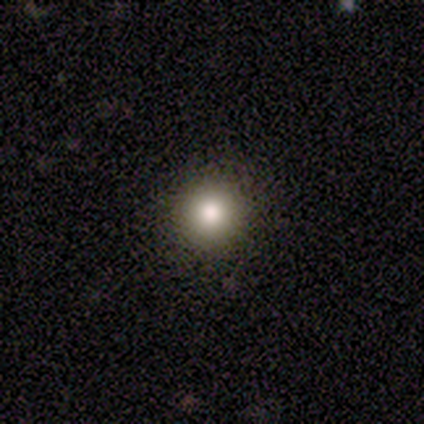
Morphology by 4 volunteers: This is clearly a smooth galaxy (100%). How rounded: clearly round (100%). Merging: clearly none (100%).